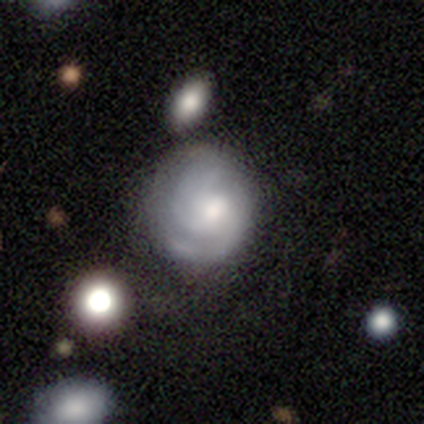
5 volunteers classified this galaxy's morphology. Smooth or featured?
  - smooth: 60% *
  - featured or disk: 40%
  - star or artifact: 0%
How rounded?
  - round: 100% *
  - in between: 0%
  - cigar-shaped: 0%
Merging?
  - none: 40% * (tied)
  - major disturbance: 40% * (tied)
  - minor disturbance: 20%
  - merger: 0%